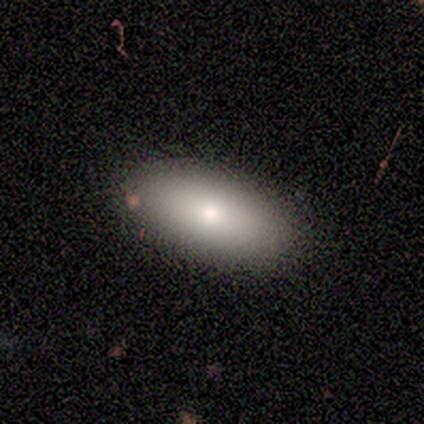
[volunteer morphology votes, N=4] smooth_or_featured: smooth (p=1.00)
how_rounded: in between (p=1.00)
merging: none (p=0.50) [tied with: minor disturbance p=0.50]